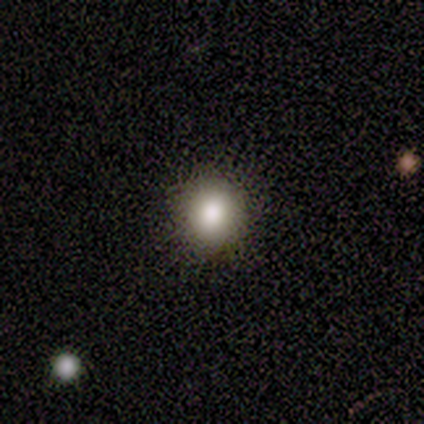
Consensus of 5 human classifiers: Smooth or featured? 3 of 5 (60%) said smooth. How rounded? 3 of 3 (100%) said round. Merging? 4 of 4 (100%) said none.